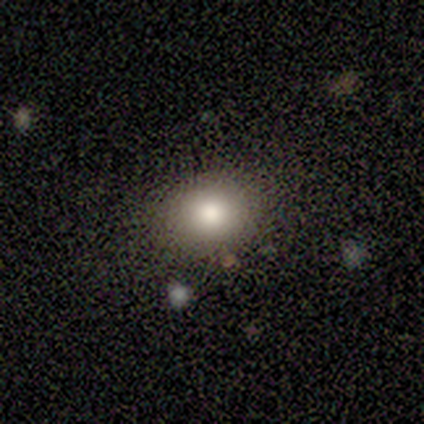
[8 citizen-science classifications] Volunteers were most divided on "merging": none: 71%, minor disturbance: 14%, major disturbance: 14%, merger: 0%. More confident: how rounded — round (100%); smooth or featured — smooth (75%).